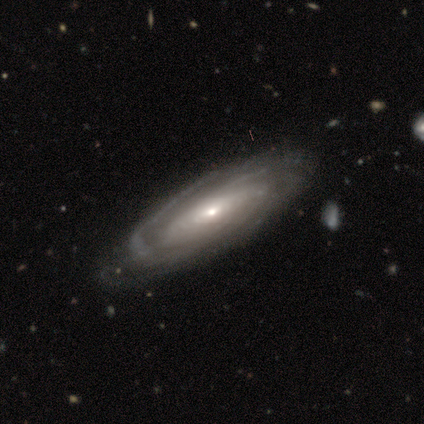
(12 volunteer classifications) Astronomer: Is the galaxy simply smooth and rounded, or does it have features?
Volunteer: featured or disk — 100%.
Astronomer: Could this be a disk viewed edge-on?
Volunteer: no — 75%.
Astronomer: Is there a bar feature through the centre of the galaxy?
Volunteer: no — 78%.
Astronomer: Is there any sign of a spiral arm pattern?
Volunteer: yes — 100%.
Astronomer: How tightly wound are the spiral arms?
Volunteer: tight — 67%.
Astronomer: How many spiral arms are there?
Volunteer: can't tell — 67%.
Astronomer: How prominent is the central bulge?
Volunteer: small — 78%.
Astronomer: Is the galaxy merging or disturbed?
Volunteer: none — 75%.